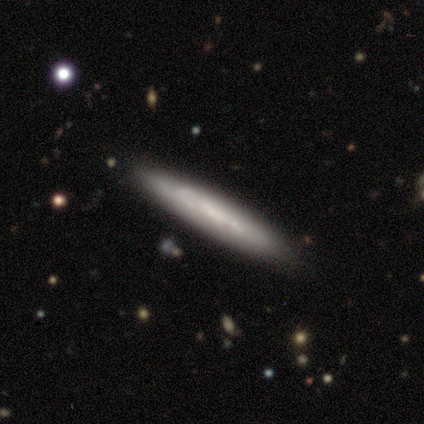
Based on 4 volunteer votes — Q: Smooth or featured?
A: featured or disk (75%); runner-up: smooth (25%)
Q: Edge-on disk?
A: yes (67%); runner-up: no (33%)
Q: Edge-on bulge?
A: none (100%)
Q: Merging?
A: none (100%)